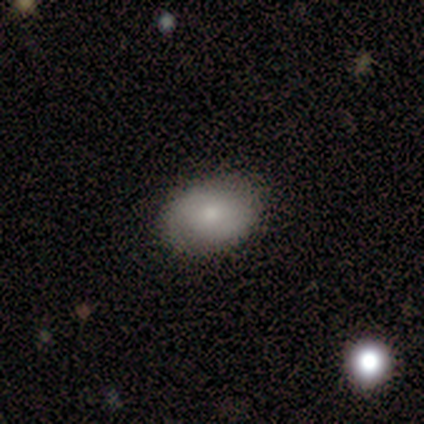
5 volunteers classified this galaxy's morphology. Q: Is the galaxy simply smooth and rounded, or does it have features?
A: smooth — 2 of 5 (40%, tied with featured or disk).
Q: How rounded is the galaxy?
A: in between — 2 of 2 (100%).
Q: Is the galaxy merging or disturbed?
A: none — 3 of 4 (75%).